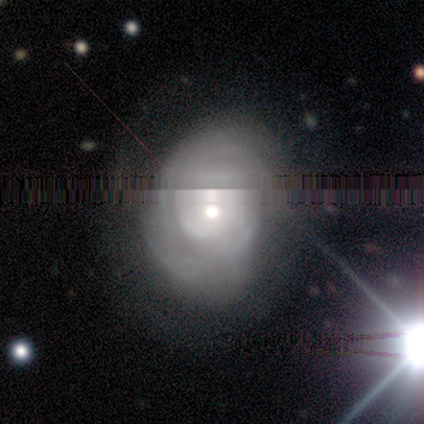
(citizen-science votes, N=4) Smooth or featured: featured or disk — 75% (smooth — 25%)
Edge-on disk: no — 100%
Bar: no — 100%
Spiral arms: yes — 100%
Spiral winding: tight — 67% (medium — 33%)
Spiral arm count: can't tell — 100%
Bulge size: small — 67% (moderate — 33%)
Merging: none — 100%